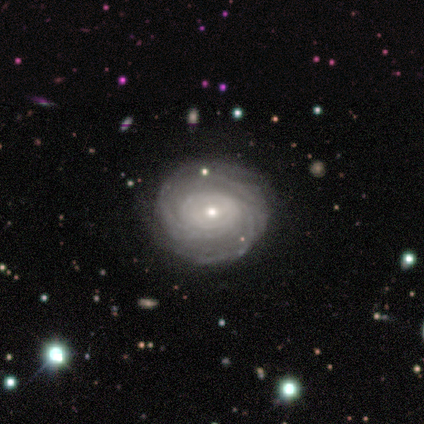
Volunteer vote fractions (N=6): Morphology: type=featured or disk (83%); edge-on=no (100%); bar=no (100%); spiral arms=yes (100%); winding=tight (60%); arm count=can't tell (60%); bulge=small (100%); merging=none (83%).